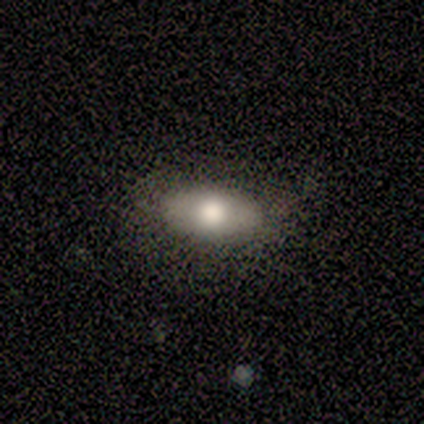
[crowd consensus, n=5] Smooth or featured? 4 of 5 (80%) said smooth. How rounded? 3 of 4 (75%) said in between. Merging? 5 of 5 (100%) said none.